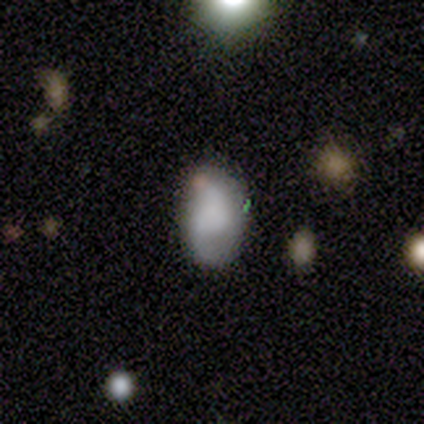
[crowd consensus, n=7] A smooth galaxy with no disk features (71%) that is in between round and cigar-shaped (100%).

Vote fractions:
- Smooth or featured? smooth: 71% / featured or disk: 29% / star or artifact: 0%
- How rounded? in between: 100% / round: 0% / cigar-shaped: 0%
- Merging? none: 86% / major disturbance: 14% / minor disturbance: 0% / merger: 0%